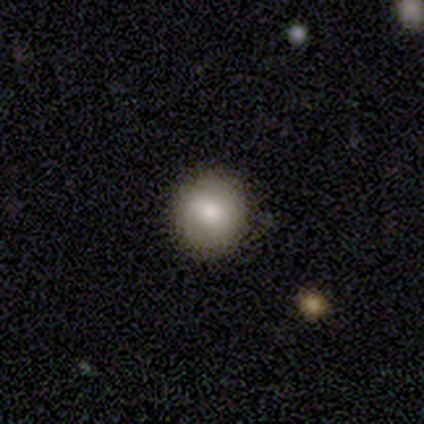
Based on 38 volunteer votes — This appears to be a smooth galaxy with no disk features (74%) that is round (96%). Merging: none (81%).